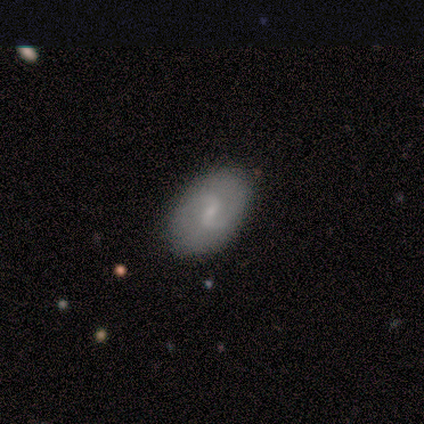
Overall: smooth (60%; featured or disk 20%). How rounded: in between (67%; round 33%). Merging: none (100%).